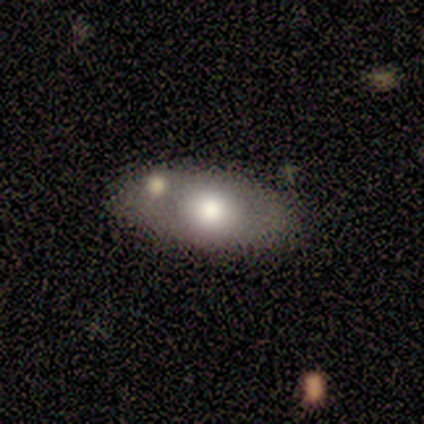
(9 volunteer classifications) Smooth or featured? 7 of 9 (78%) said smooth. How rounded? 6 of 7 (86%) said in between. Merging? 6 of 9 (67%) said none.